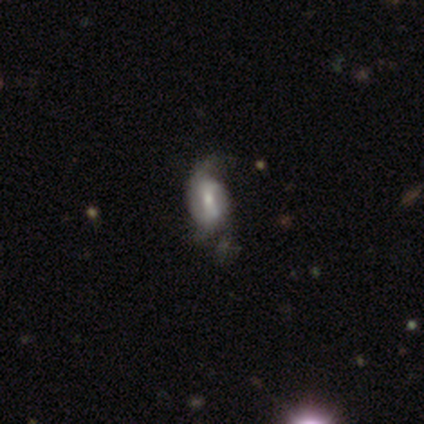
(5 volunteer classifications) A featured or disk galaxy (80%) with no bar (75%), 2 (100%) loose (100%) spiral arms (50%, tied with no) and a moderate central bulge (75%).

Vote fractions:
- Smooth or featured? featured or disk: 80% / smooth: 20% / star or artifact: 0%
- Edge-on disk? no: 100% / yes: 0%
- Bar? no: 75% / weak: 25% / strong: 0%
- Spiral arms? yes: 50% (tied) / no: 50% (tied)
- Spiral winding? loose: 100% / tight: 0% / medium: 0%
- Spiral arm count? 2: 100% / 1: 0% / 3: 0% / 4: 0% / more than 4: 0% / can't tell: 0%
- Bulge size? moderate: 75% / small: 25% / dominant: 0% / large: 0% / none: 0%
- Merging? none: 40% (tied) / minor disturbance: 40% (tied) / major disturbance: 20% / merger: 0%